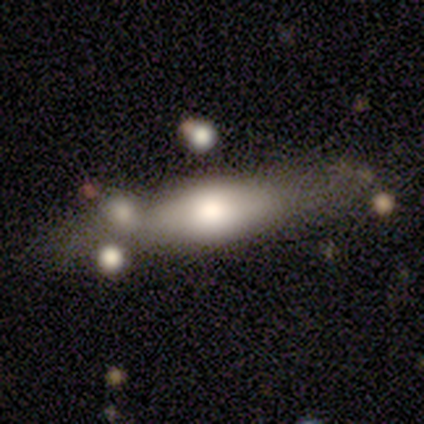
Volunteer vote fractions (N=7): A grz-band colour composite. It shows a featured or disk galaxy (100%) viewed edge-on (57%) with a rounded central bulge (75%). Merging: none (43%).